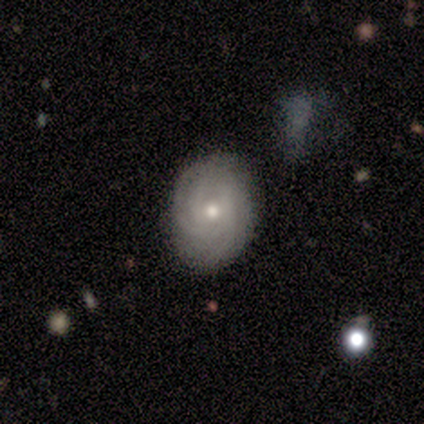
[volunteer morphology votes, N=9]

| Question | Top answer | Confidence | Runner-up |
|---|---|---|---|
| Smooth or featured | featured or disk | 89% | smooth (11%) |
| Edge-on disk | no | 100% | — |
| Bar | no | 75% | weak (25%) |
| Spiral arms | yes | 100% | — |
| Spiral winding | tight | 75% | medium (25%) |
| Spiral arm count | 3 | 50% | can't tell (25%) |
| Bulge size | moderate | 50% | small (38%) |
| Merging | none | 78% | minor disturbance (22%) |